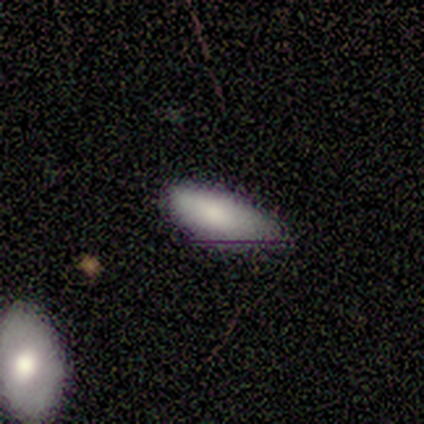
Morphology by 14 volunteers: Smooth or featured? smooth (86%)
How rounded? in between (83%)
Merging? none (57%)